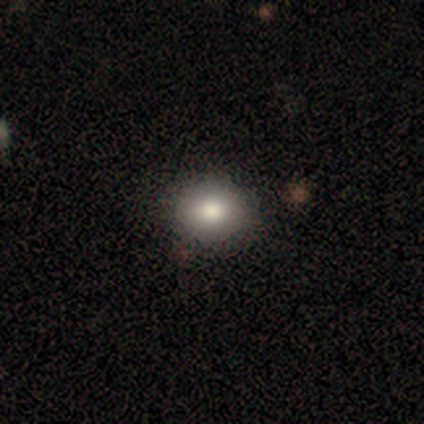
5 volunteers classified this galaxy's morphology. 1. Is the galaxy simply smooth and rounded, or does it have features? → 100% smooth, 0% featured or disk, 0% star or artifact.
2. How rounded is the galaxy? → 60% round, 40% in between, 0% cigar-shaped.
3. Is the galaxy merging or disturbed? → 100% none, 0% minor disturbance, 0% major disturbance, 0% merger.